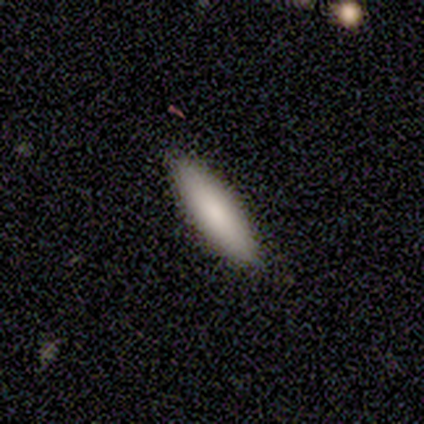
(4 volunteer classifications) A smooth galaxy with no disk features (100%) that is cigar-shaped (75%).

Vote fractions:
- Smooth or featured? smooth: 100% / featured or disk: 0% / star or artifact: 0%
- How rounded? cigar-shaped: 75% / in between: 25% / round: 0%
- Merging? none: 100% / minor disturbance: 0% / major disturbance: 0% / merger: 0%